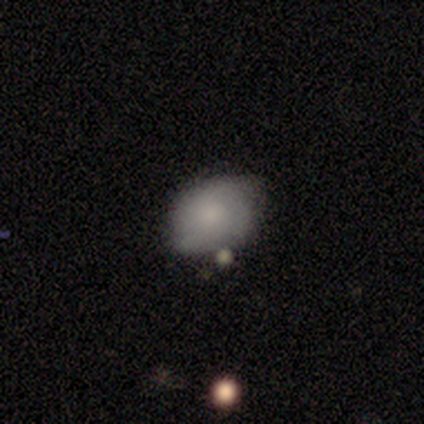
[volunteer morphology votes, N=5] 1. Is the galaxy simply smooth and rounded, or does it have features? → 100% smooth, 0% featured or disk, 0% star or artifact.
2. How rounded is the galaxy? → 100% in between, 0% round, 0% cigar-shaped.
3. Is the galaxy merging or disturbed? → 60% minor disturbance, 40% none, 0% major disturbance, 0% merger.